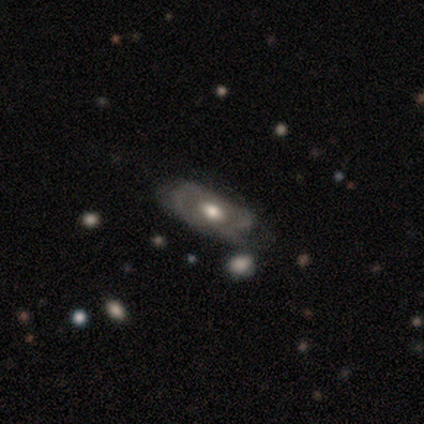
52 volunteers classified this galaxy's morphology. A featured or disk galaxy (73%) with no bar (74%), tight (59%) spiral arms (55%) and a moderate central bulge (77%).

Vote fractions:
- Smooth or featured? featured or disk: 73% / smooth: 25% / star or artifact: 2%
- Edge-on disk? no: 82% / yes: 18%
- Bar? no: 74% / weak: 16% / strong: 10%
- Spiral arms? yes: 55% / no: 45%
- Spiral winding? tight: 59% / medium: 24% / loose: 18%
- Spiral arm count? can't tell: 47% / 2: 24% / 1: 18% / 4: 12% / 3: 0% / more than 4: 0%
- Bulge size? moderate: 77% / large: 10% / small: 6% / dominant: 3% / none: 3%
- Merging? none: 53% / minor disturbance: 29% / major disturbance: 12% / merger: 6%